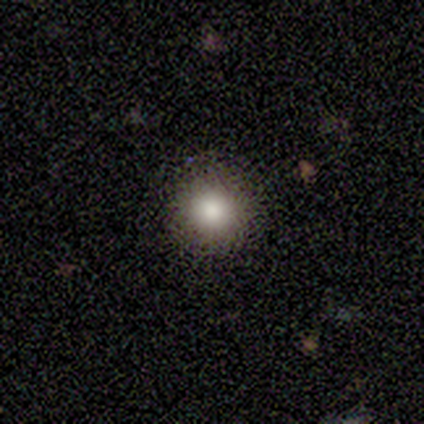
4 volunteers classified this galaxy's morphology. Q: Smooth or featured?
A: featured or disk (75%); runner-up: smooth (25%)
Q: Edge-on disk?
A: no (100%)
Q: Bar?
A: no (100%)
Q: Spiral arms?
A: no (67%); runner-up: yes (33%)
Q: Bulge size?
A: dominant (33%); tied with: large (33%); moderate (33%)
Q: Merging?
A: none (75%); runner-up: minor disturbance (25%)